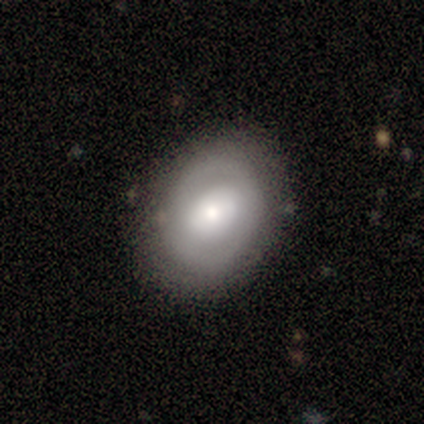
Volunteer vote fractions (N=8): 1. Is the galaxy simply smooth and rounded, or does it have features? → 75% featured or disk, 25% smooth, 0% star or artifact.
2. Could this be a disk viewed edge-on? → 100% no, 0% yes.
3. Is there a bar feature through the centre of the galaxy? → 50% no, 33% strong, 17% weak.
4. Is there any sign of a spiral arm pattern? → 67% no, 33% yes.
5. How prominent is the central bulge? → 67% small, 33% large, 0% dominant, 0% moderate, 0% none.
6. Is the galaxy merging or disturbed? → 75% none, 25% minor disturbance, 0% major disturbance, 0% merger.